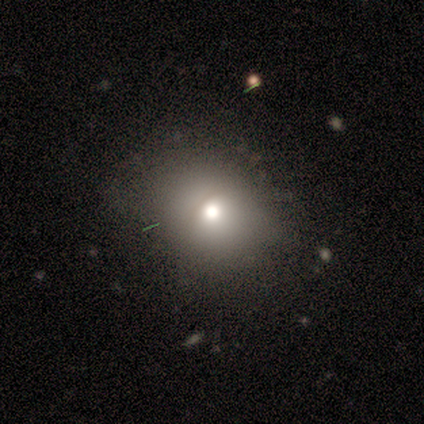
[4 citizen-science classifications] smooth 50% (tied), featured or disk 50% (tied), star or artifact 0%. Down the decision tree: how rounded — round (50%, tied with in between); merging — none (75%).